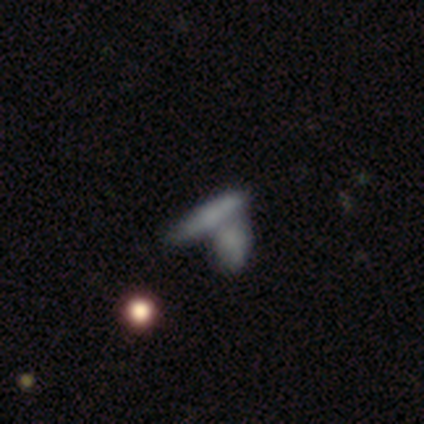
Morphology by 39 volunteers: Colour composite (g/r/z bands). It shows a smooth galaxy with no disk features (64%) that is cigar-shaped (88%). Merging: merger (64%).